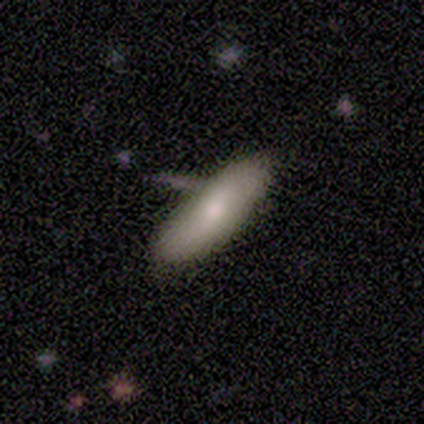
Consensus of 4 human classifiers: A smooth galaxy with no disk features (50%, tied with featured or disk) that is in between round and cigar-shaped (100%).

Vote fractions:
- Smooth or featured? smooth: 50% (tied) / featured or disk: 50% (tied) / star or artifact: 0%
- How rounded? in between: 100% / round: 0% / cigar-shaped: 0%
- Merging? none: 75% / minor disturbance: 25% / major disturbance: 0% / merger: 0%